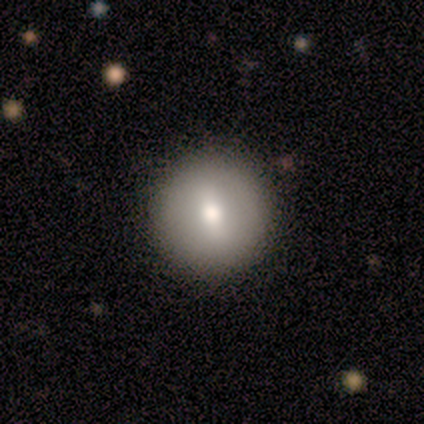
Q: Smooth or featured?
A: smooth (60%); runner-up: featured or disk (40%)
Q: How rounded?
A: round (100%)
Q: Merging?
A: none (60%); runner-up: minor disturbance (20%)